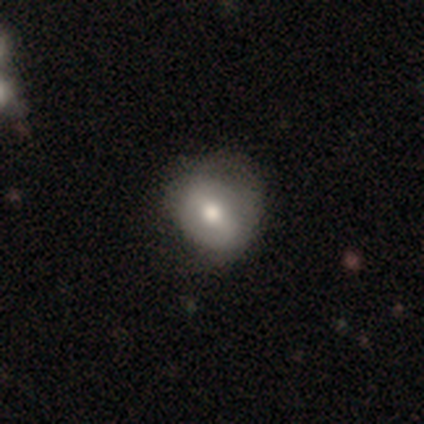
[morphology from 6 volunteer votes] Volunteers were most divided on "smooth or featured": smooth: 67%, featured or disk: 17%, star or artifact: 17%. More confident: how rounded — round (100%); merging — none (80%).